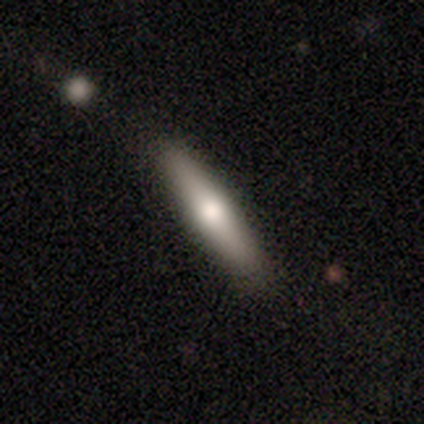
This appears to be a smooth galaxy with no disk features (80%) that is cigar-shaped (100%). Merging: none (100%).